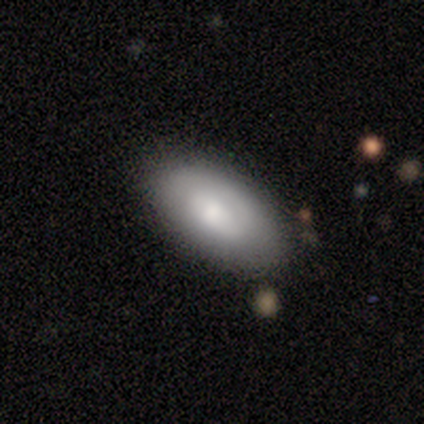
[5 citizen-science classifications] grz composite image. It shows a smooth galaxy with no disk features (60%) that is in between round and cigar-shaped (67%). Merging: none (100%).